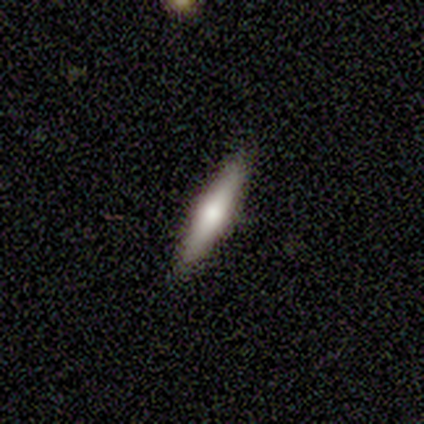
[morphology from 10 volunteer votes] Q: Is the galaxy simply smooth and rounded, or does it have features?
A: featured or disk — 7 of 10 (70%).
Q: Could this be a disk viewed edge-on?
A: yes — 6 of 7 (86%).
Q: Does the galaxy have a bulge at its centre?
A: rounded — 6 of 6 (100%).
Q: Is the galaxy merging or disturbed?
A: none — 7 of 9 (78%).